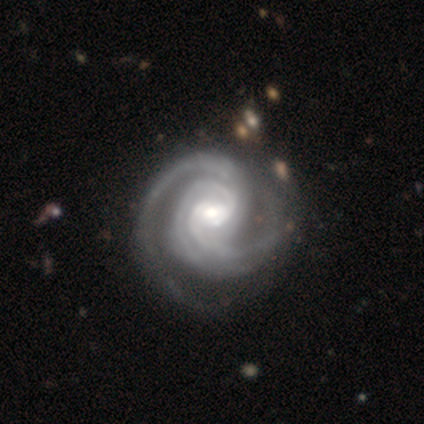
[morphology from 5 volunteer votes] Volunteers were most divided on "bar": weak: 60%, no: 40%, strong: 0%. More confident: smooth or featured — featured or disk (100%); edge-on disk — no (100%); spiral arms — yes (100%); merging — none (80%); spiral winding — tight (60%); bulge size — moderate (60%); spiral arm count — 2 (60%).